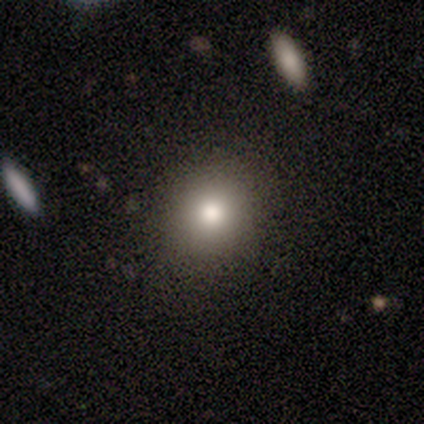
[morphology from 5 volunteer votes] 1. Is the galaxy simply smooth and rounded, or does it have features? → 80% smooth, 20% featured or disk, 0% star or artifact.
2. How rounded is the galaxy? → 100% round, 0% in between, 0% cigar-shaped.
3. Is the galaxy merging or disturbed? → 80% none, 20% minor disturbance, 0% major disturbance, 0% merger.